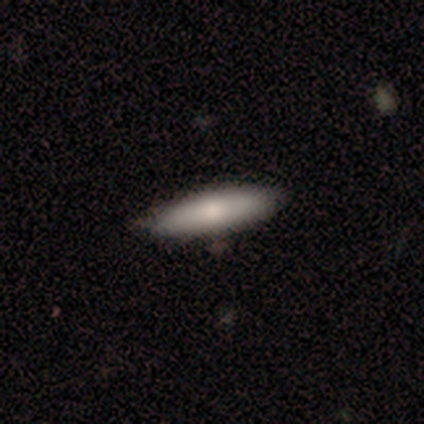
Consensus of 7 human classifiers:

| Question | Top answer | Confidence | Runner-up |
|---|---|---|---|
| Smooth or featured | smooth | 71% | featured or disk (29%) |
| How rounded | cigar-shaped | 60% | in between (40%) |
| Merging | none | 86% | minor disturbance (14%) |